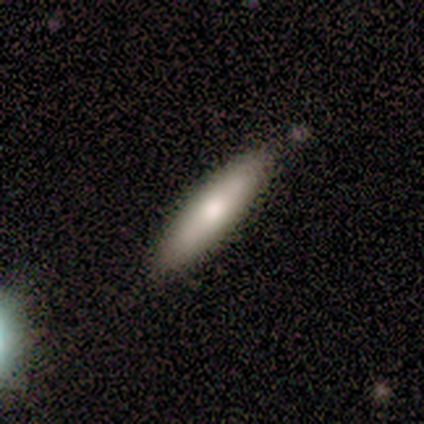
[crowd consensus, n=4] Smooth or featured? 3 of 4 (75%) said smooth. How rounded? 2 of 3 (67%) said cigar-shaped. Merging? 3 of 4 (75%) said none.